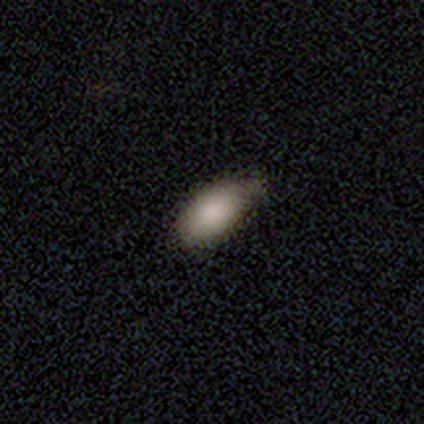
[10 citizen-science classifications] Smooth or featured: smooth — 80% (star or artifact — 20%)
How rounded: in between — 100%
Merging: none — 75% (minor disturbance — 25%)